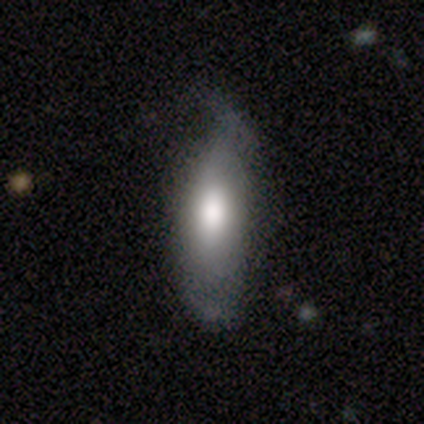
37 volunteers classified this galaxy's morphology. Smooth or featured? 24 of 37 (65%) said smooth. How rounded? 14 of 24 (58%) said in between. Merging? 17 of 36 (47%) said none.